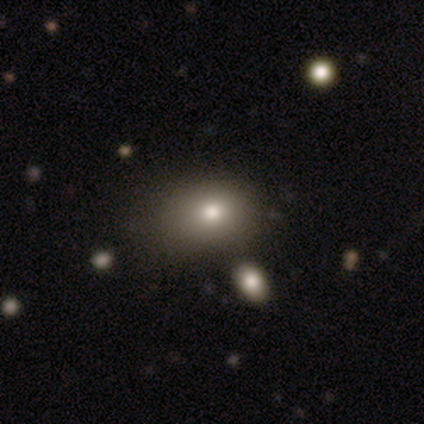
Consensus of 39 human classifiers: Overall: smooth (82%). How rounded: in between (78%). Merging: none (50%; minor disturbance 14%).